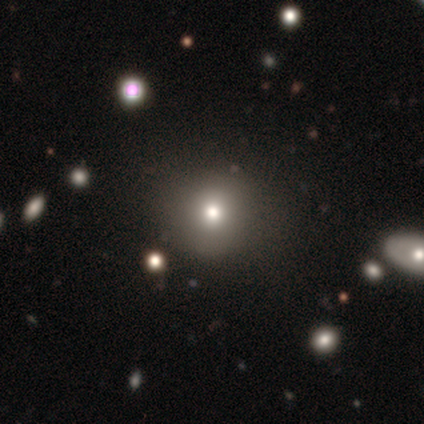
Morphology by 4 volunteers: A smooth galaxy with no disk features (100%) that is round (100%).

Vote fractions:
- Smooth or featured? smooth: 100% / featured or disk: 0% / star or artifact: 0%
- How rounded? round: 100% / in between: 0% / cigar-shaped: 0%
- Merging? none: 100% / minor disturbance: 0% / major disturbance: 0% / merger: 0%